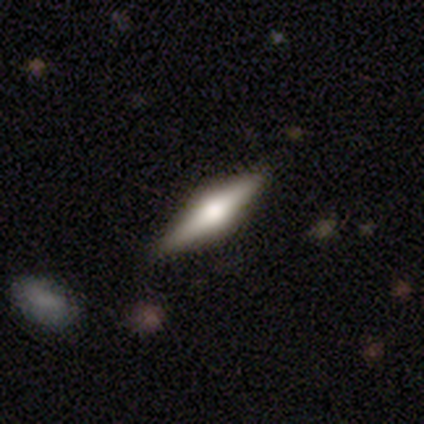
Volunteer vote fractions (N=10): smooth_or_featured: featured or disk (p=0.60) [alt: smooth p=0.40]
disk_edge_on: yes (p=1.00)
edge_on_bulge: rounded (p=1.00)
merging: none (p=0.80) [alt: minor disturbance p=0.10]